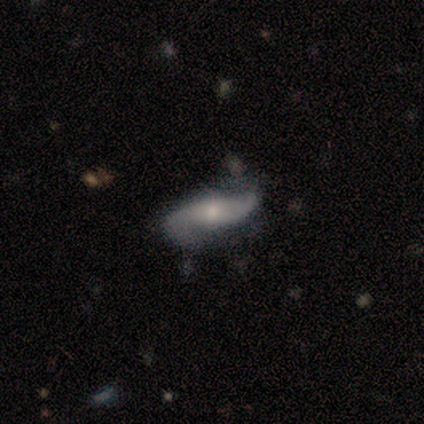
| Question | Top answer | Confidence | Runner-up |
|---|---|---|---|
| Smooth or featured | featured or disk | 100% | — |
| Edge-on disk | no | 60% | yes (40%) |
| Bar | no | 67% | weak (33%) |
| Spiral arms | yes | 100% | — |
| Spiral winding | loose | 67% | medium (33%) |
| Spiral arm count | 2 | 100% | — |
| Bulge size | small | 67% | dominant (33%) |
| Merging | none | 60% | minor disturbance (40%) |